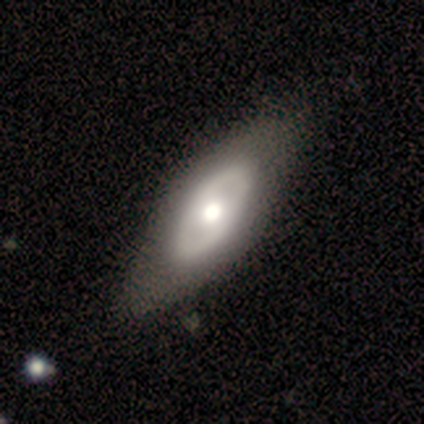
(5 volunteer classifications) Overall: smooth (60%; featured or disk 40%). How rounded: in between (100%). Merging: none (60%; minor disturbance 40%).